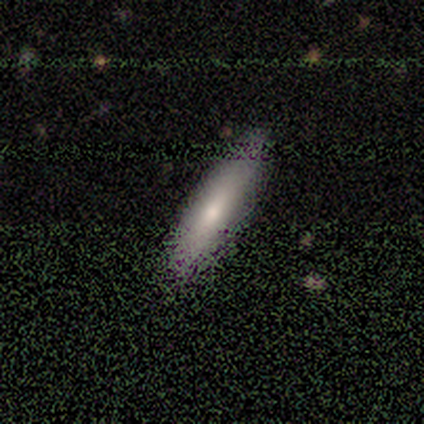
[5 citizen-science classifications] This appears to be a smooth galaxy with no disk features (60%) that is cigar-shaped (67%). Merging: none (50%, tied with minor disturbance).